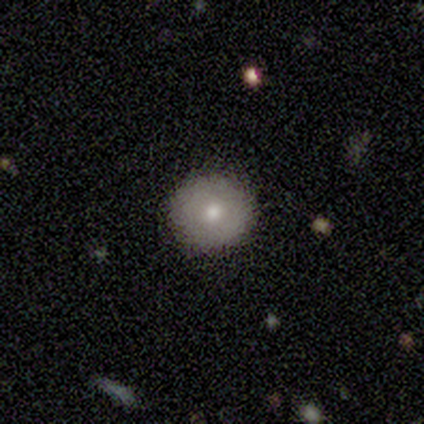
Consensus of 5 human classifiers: A smooth galaxy with no disk features (100%) that is round (100%). Merging: none (80%).